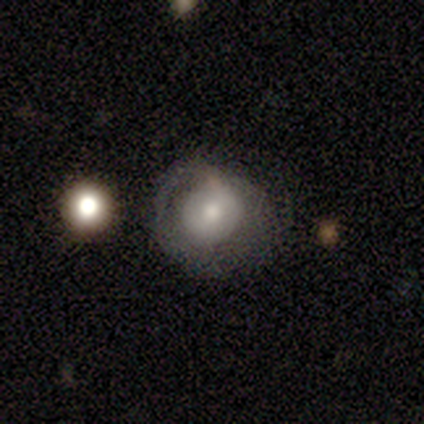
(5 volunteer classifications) Smooth or featured? 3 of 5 (60%) said featured or disk. Edge-on disk? 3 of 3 (100%) said no. Bar? 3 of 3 (100%) said no. Spiral arms? 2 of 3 (67%) said no. Bulge size? 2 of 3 (67%) said small. Merging? 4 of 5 (80%) said none.